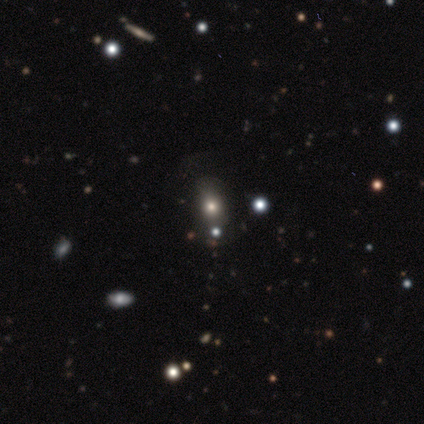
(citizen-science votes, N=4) smooth-or-featured: smooth: 75% | star or artifact: 25% | featured or disk: 0%
  how-rounded: in between: 100% | round: 0% | cigar-shaped: 0%
  merging: none: 67% | minor disturbance: 33% | major disturbance: 0% | merger: 0%